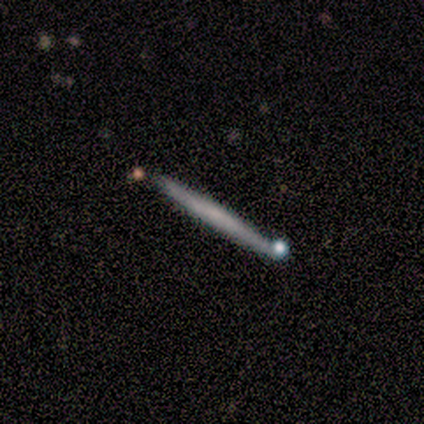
smooth 60%, featured or disk 40%, star or artifact 0%. Down the decision tree: how rounded — cigar-shaped (100%); merging — none (100%).